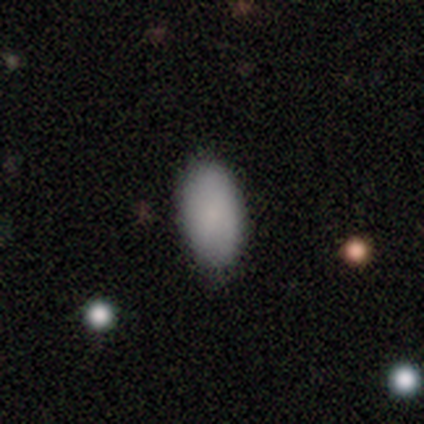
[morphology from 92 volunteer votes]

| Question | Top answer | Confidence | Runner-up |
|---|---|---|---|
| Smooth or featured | smooth | 89% | featured or disk (5%) |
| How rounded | in between | 95% | cigar-shaped (4%) |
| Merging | none | 90% | minor disturbance (6%) |